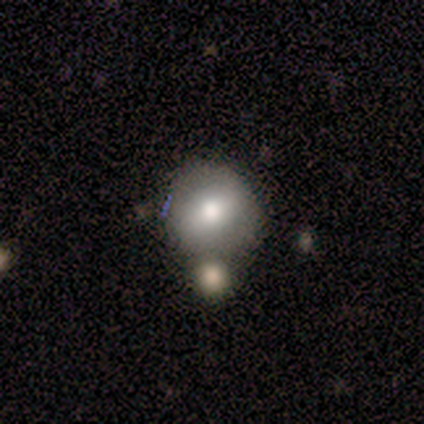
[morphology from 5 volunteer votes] smooth 80%, featured or disk 20%, star or artifact 0%. Down the decision tree: how rounded — round (75%); merging — merger (60%).